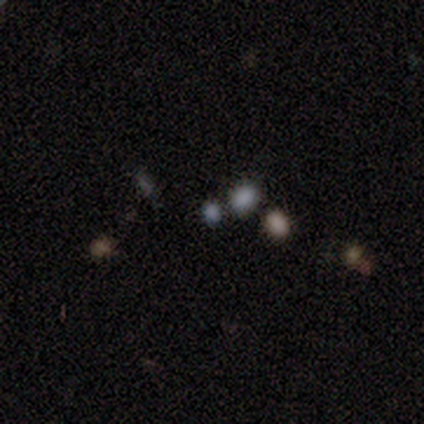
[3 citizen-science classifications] Smooth or featured: star or artifact — 100%